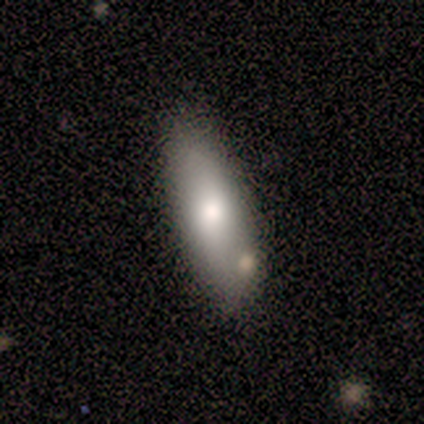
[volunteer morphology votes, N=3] A smooth galaxy with no disk features (67%) that is in between round and cigar-shaped (100%). Merging: none (100%).